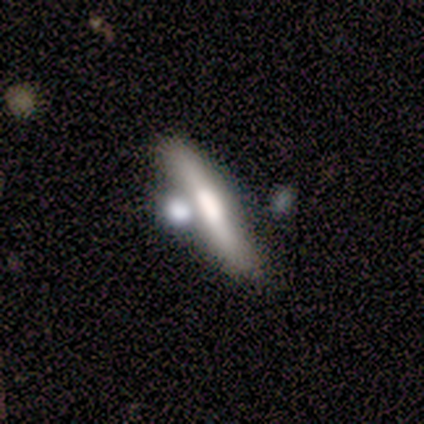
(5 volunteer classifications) A smooth galaxy with no disk features (40%, tied with featured or disk) that is in between round and cigar-shaped (100%).

Vote fractions:
- Smooth or featured? smooth: 40% (tied) / featured or disk: 40% (tied) / star or artifact: 20%
- How rounded? in between: 100% / round: 0% / cigar-shaped: 0%
- Merging? merger: 50% / none: 25% / minor disturbance: 25% / major disturbance: 0%